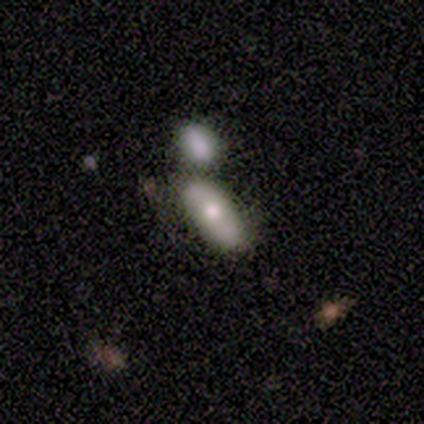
This appears to be a smooth galaxy with no disk features (100%) that is in between round and cigar-shaped (75%). Merging: none (50%, tied with merger).